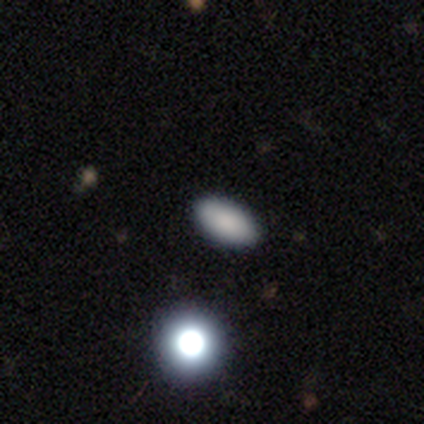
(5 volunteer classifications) Smooth or featured?
  - smooth: 80% *
  - featured or disk: 20%
  - star or artifact: 0%
How rounded?
  - in between: 100% *
  - round: 0%
  - cigar-shaped: 0%
Merging?
  - none: 100% *
  - minor disturbance: 0%
  - major disturbance: 0%
  - merger: 0%